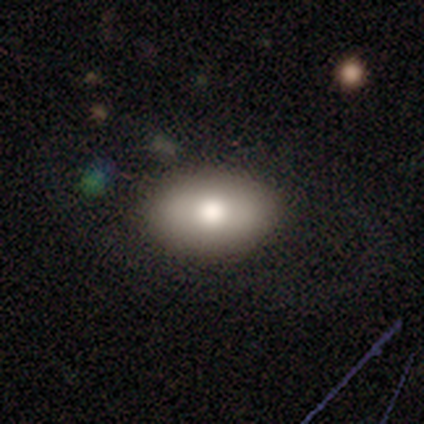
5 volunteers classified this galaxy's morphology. Smooth or featured?
  - smooth: 60% *
  - featured or disk: 40%
  - star or artifact: 0%
How rounded?
  - in between: 100% *
  - round: 0%
  - cigar-shaped: 0%
Merging?
  - none: 80% *
  - major disturbance: 20%
  - minor disturbance: 0%
  - merger: 0%